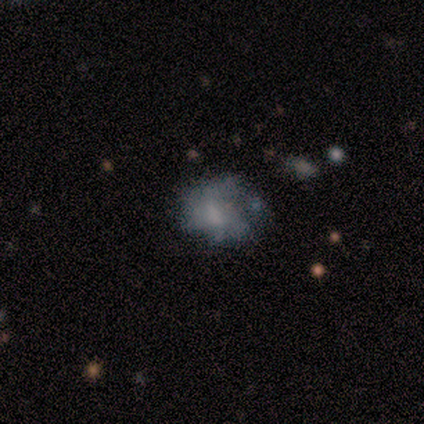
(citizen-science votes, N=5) This appears to be a smooth galaxy with no disk features (60%) that is in between round and cigar-shaped (67%). Merging: minor disturbance (60%).